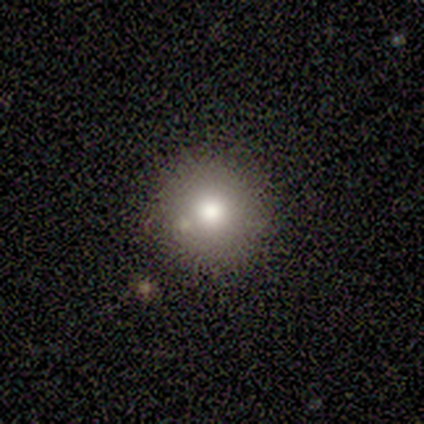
Overall: smooth (80%). How rounded: round (75%). Merging: none (75%).